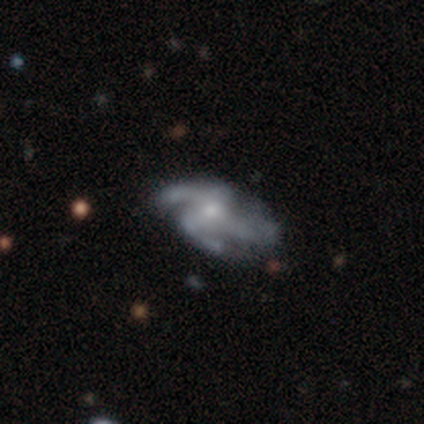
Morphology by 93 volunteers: Volunteers were most divided on "spiral arm count": 3: 51%, 4: 35%, can't tell: 12%, 2: 3%, 1: 0%, more than 4: 0%. More confident: spiral arms — yes (98%); edge-on disk — no (94%); smooth or featured — featured or disk (91%); bar — no (76%); merging — none (62%); spiral winding — medium (56%); bulge size — small (55%).